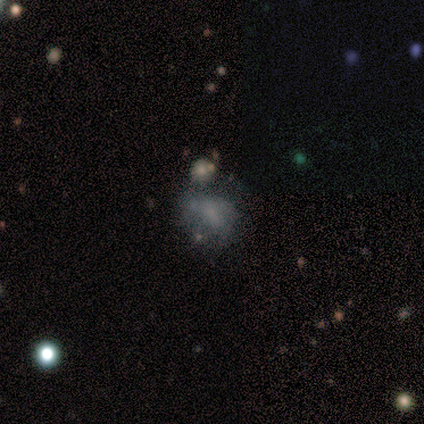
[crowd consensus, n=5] smooth-or-featured: smooth: 60% | featured or disk: 20% | star or artifact: 20%
  how-rounded: in between: 67% | round: 33% | cigar-shaped: 0%
  merging: none: 50% (tied) | minor disturbance: 50% (tied) | major disturbance: 0% | merger: 0%